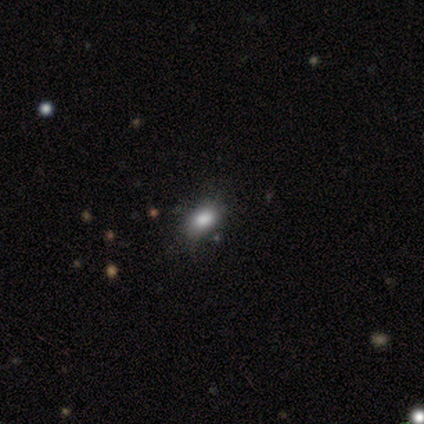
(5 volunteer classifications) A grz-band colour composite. It shows a smooth galaxy with no disk features (80%) that is in between round and cigar-shaped (75%). Merging: none (80%).